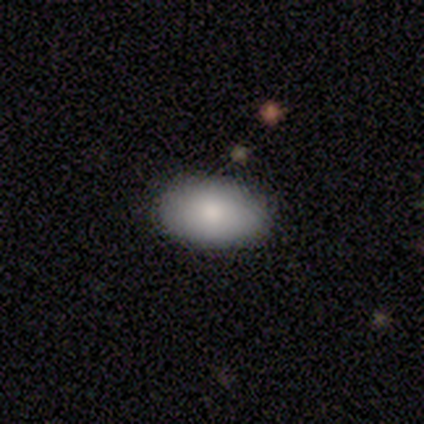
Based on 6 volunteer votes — smooth 67%, featured or disk 17%, star or artifact 17%. Down the decision tree: how rounded — in between (100%); merging — none (80%).